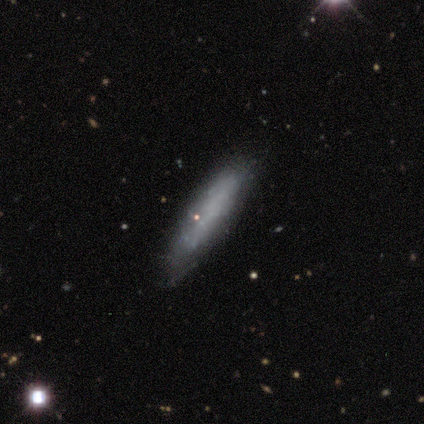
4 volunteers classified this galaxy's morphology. This is possibly a smooth galaxy (50%, tied with featured or disk). How rounded: clearly cigar-shaped (100%). Merging: clearly none (100%).